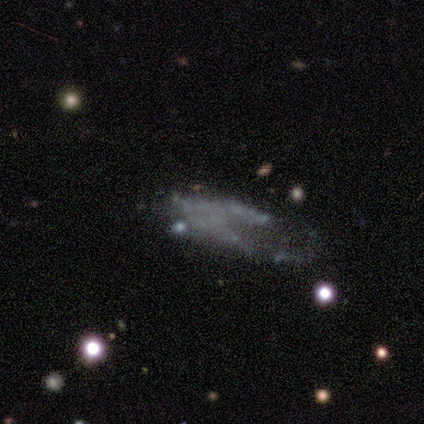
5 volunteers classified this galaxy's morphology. This appears to be a featured or disk galaxy (40%, tied with star or artifact) with no bar (100%), no spiral arms (100%) and no central bulge (100%). Merging: major disturbance (100%).